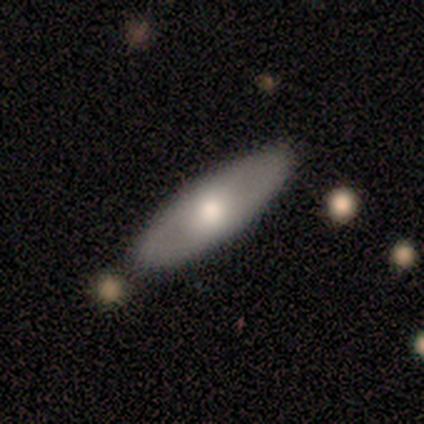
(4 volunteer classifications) This appears to be a featured or disk galaxy (75%) with no bar (100%), no spiral arms (100%) and a large central bulge (33%, tied with small and none). Merging: none (100%).